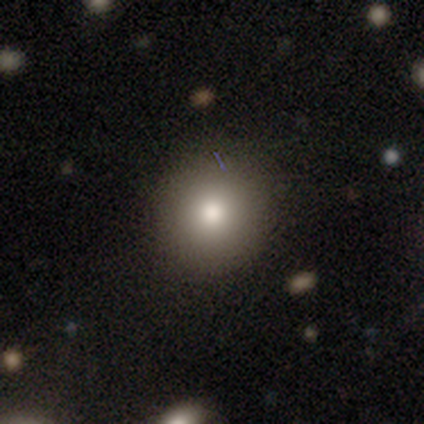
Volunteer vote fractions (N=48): Overall: smooth (73%). How rounded: round (91%). Merging: none (87%).